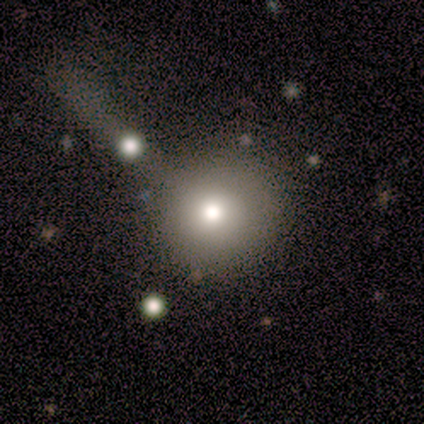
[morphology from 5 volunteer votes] smooth-or-featured: smooth: 80% | star or artifact: 20% | featured or disk: 0%
  how-rounded: round: 100% | in between: 0% | cigar-shaped: 0%
  merging: none: 75% | merger: 25% | minor disturbance: 0% | major disturbance: 0%